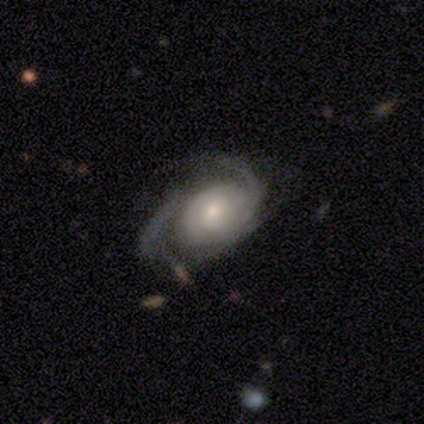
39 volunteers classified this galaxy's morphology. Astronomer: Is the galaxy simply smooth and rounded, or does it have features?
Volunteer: featured or disk — 85%.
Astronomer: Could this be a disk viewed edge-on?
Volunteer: no — 94%.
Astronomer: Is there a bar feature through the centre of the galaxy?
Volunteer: no — 61%.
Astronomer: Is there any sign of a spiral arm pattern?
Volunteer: yes — 100%.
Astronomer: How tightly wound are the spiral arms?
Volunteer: tight — 52% (runner-up: medium, 45%).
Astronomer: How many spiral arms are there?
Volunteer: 2 — 58%.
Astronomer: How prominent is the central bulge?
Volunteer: moderate — 52% (runner-up: small, 45%).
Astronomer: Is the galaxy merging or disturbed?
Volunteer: none — 61%.